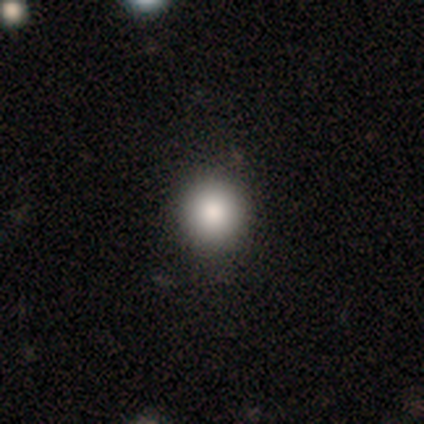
Smooth or featured: smooth — 75% (star or artifact — 25%)
How rounded: round — 100%
Merging: none — 83% (minor disturbance — 17%)